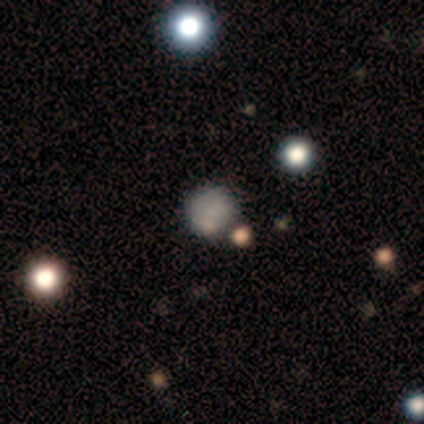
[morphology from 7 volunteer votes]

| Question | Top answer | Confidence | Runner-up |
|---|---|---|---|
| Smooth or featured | smooth | 100% | — |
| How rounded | round | 71% | in between (29%) |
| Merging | none | 43% | minor disturbance (29%) |